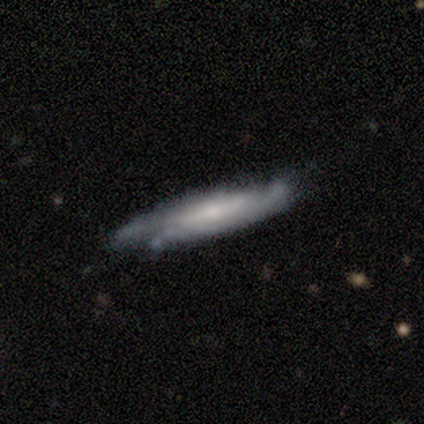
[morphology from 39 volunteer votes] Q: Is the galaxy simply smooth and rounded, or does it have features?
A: featured or disk — 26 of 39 (67%).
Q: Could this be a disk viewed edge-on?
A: yes — 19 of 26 (73%).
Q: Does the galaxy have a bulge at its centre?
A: none — 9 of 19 (47%).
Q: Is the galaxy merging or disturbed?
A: none — 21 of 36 (58%).